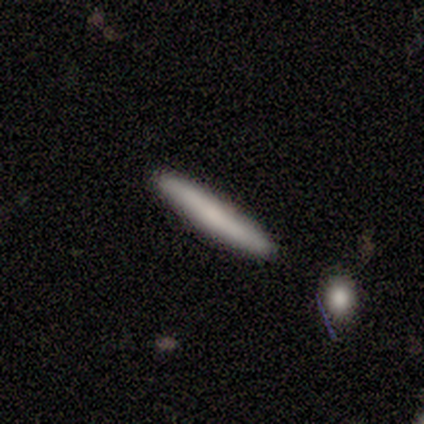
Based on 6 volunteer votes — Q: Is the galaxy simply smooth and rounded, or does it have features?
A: smooth — 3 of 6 (50%, tied with featured or disk).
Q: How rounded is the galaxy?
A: cigar-shaped — 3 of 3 (100%).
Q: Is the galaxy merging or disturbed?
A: none — 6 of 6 (100%).